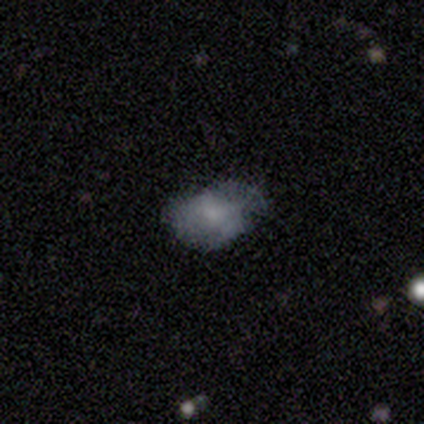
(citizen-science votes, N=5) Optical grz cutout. It shows a smooth galaxy with no disk features (60%) that is in between round and cigar-shaped (67%). Merging: none (60%).